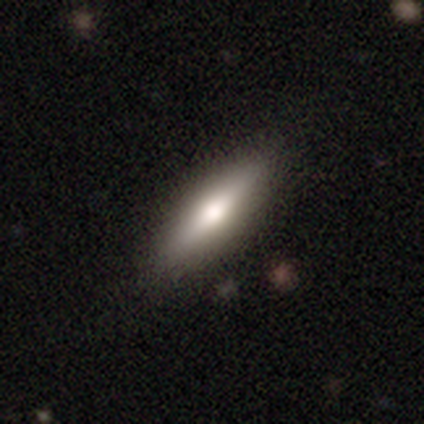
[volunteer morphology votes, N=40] Smooth or featured: smooth — 48% (tied with featured or disk — 48%)
How rounded: in between — 63% (cigar-shaped — 37%)
Merging: none — 87% (minor disturbance — 3%)